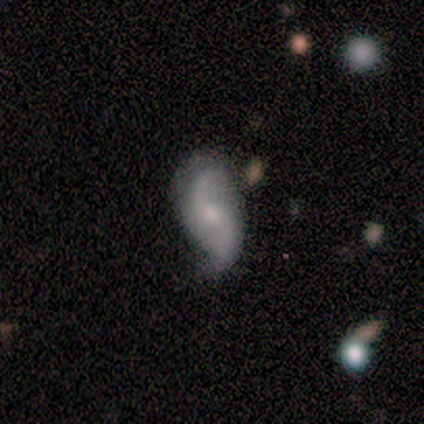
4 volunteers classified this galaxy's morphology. Q: Smooth or featured?
A: featured or disk (75%); runner-up: smooth (25%)
Q: Edge-on disk?
A: no (100%)
Q: Bar?
A: no (100%)
Q: Spiral arms?
A: yes (100%)
Q: Spiral winding?
A: loose (100%)
Q: Spiral arm count?
A: 2 (67%); runner-up: can't tell (33%)
Q: Bulge size?
A: small (100%)
Q: Merging?
A: minor disturbance (50%); runner-up: none (25%)